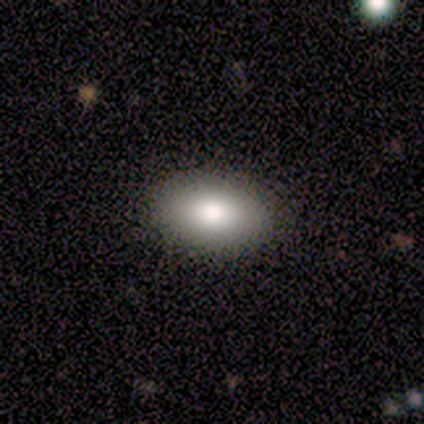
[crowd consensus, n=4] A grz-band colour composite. It shows a smooth galaxy with no disk features (100%) that is in between round and cigar-shaped (100%). Merging: none (75%).